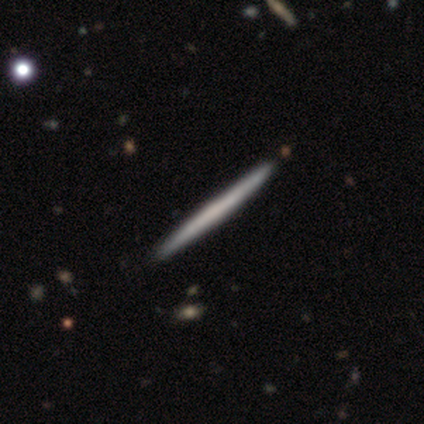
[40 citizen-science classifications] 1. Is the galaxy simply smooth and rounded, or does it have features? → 57% featured or disk, 40% smooth, 2% star or artifact.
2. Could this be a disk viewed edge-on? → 100% yes, 0% no.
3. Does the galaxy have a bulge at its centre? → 87% none, 13% rounded, 0% boxy.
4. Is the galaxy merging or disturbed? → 67% none, 8% minor disturbance, 0% major disturbance, 0% merger.